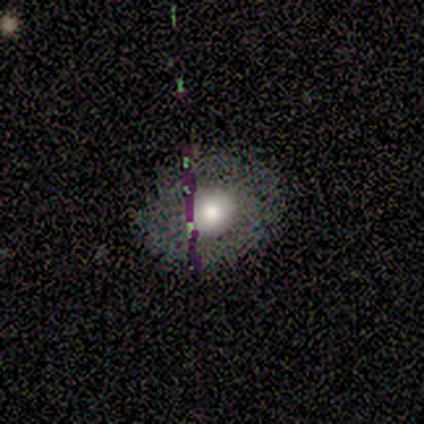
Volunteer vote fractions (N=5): Smooth or featured? 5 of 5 (100%) said smooth. How rounded? 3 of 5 (60%) said round. Merging? 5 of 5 (100%) said none.